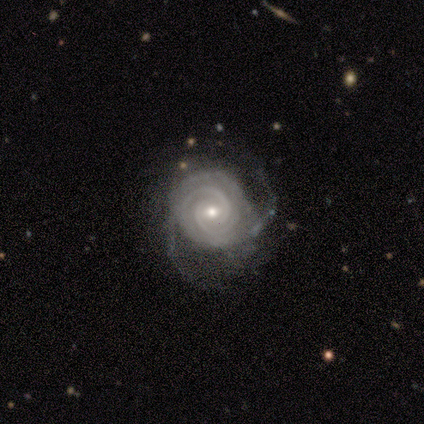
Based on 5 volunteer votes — A featured or disk galaxy (100%) with no bar (80%), 3 (40%) tight (100%) spiral arms (100%) and a small central bulge (80%). Merging: none (100%).